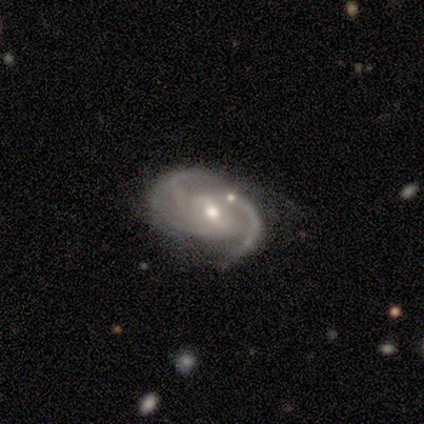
A featured or disk galaxy (80%) with a strong bar (50%), 3 (50%) medium (50%) spiral arms (100%) and a moderate central bulge (75%).

Vote fractions:
- Smooth or featured? featured or disk: 80% / smooth: 20% / star or artifact: 0%
- Edge-on disk? no: 100% / yes: 0%
- Bar? strong: 50% / weak: 25% / no: 25%
- Spiral arms? yes: 100% / no: 0%
- Spiral winding? medium: 50% / tight: 25% / loose: 25%
- Spiral arm count? 3: 50% / 2: 25% / can't tell: 25% / 1: 0% / 4: 0% / more than 4: 0%
- Bulge size? moderate: 75% / small: 25% / dominant: 0% / large: 0% / none: 0%
- Merging? minor disturbance: 60% / none: 40% / major disturbance: 0% / merger: 0%